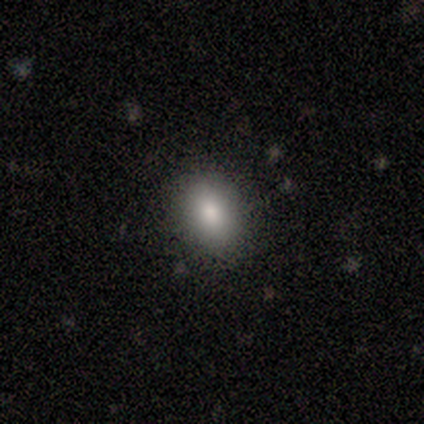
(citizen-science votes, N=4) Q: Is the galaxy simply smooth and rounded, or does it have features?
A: smooth — 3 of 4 (75%).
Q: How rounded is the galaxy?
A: in between — 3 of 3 (100%).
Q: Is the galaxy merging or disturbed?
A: none — 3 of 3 (100%).